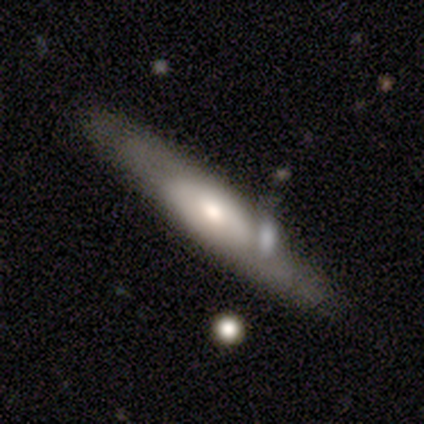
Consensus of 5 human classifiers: This appears to be a featured or disk galaxy (80%) with no bar (100%), 2 (50%, tied with can't tell) tight (100%) spiral arms (67%) and a moderate central bulge (100%). Merging: none (80%).